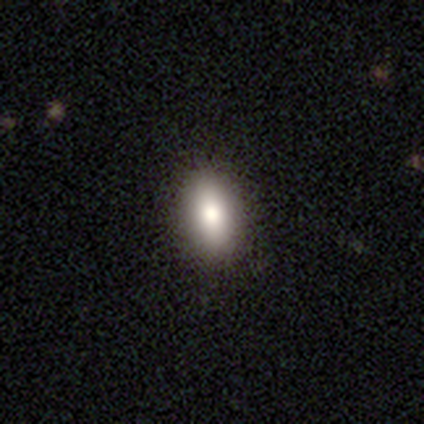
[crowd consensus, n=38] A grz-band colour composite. It shows a smooth galaxy with no disk features (74%) that is in between round and cigar-shaped (93%). Merging: none (97%).